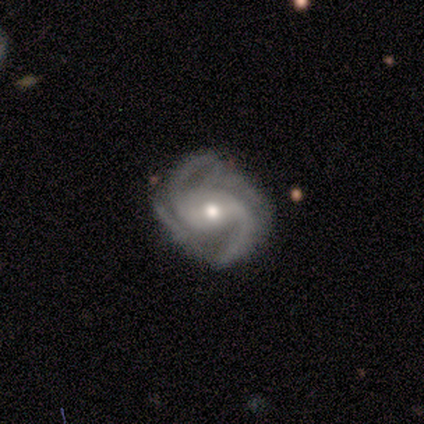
featured or disk 100%, smooth 0%, star or artifact 0%. Down the decision tree: edge-on disk — no (100%); bar — weak (80%); spiral arms — yes (100%); spiral arm count — 2 (60%); spiral winding — medium (60%); bulge size — moderate (60%); merging — none (80%).